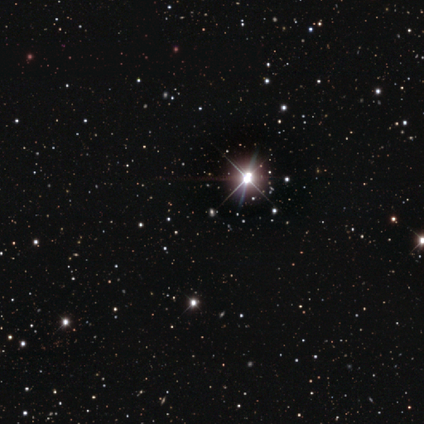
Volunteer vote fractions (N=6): Smooth or featured?
  - star or artifact: 100% *
  - smooth: 0%
  - featured or disk: 0%